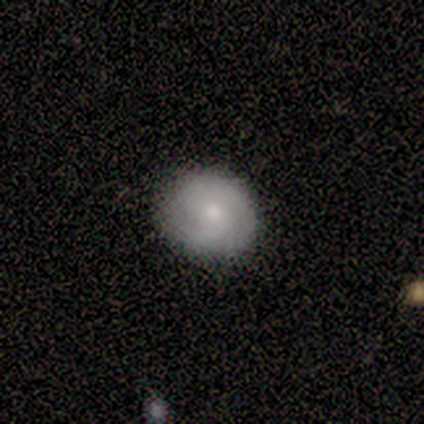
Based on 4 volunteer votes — Q: Smooth or featured?
A: smooth (50%); tied with: featured or disk (50%)
Q: How rounded?
A: round (50%); tied with: in between (50%)
Q: Merging?
A: none (100%)